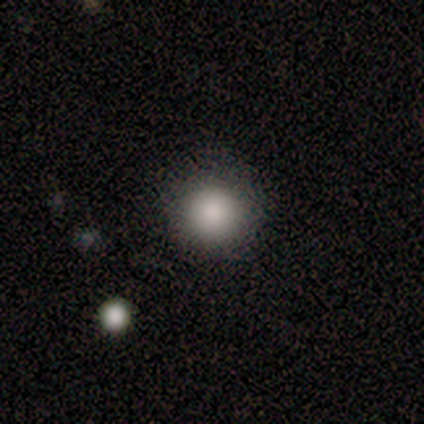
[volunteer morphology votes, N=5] Smooth or featured: smooth — 80% (star or artifact — 20%)
How rounded: round — 100%
Merging: none — 75% (minor disturbance — 25%)